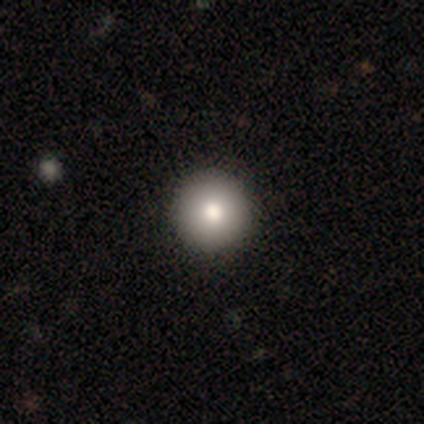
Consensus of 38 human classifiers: A smooth galaxy with no disk features (84%) that is round (94%).

Vote fractions:
- Smooth or featured? smooth: 84% / star or artifact: 13% / featured or disk: 3%
- How rounded? round: 94% / in between: 6% / cigar-shaped: 0%
- Merging? none: 94% / major disturbance: 3% / merger: 3% / minor disturbance: 0%